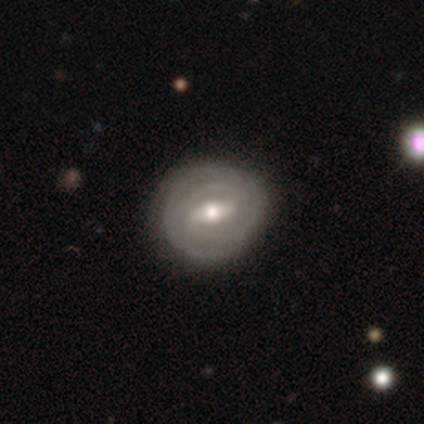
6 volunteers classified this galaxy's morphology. This appears to be a featured or disk galaxy (100%) with a strong bar (83%), 2 (50%) tight (100%) spiral arms (100%) and a moderate central bulge (67%). Merging: none (100%).